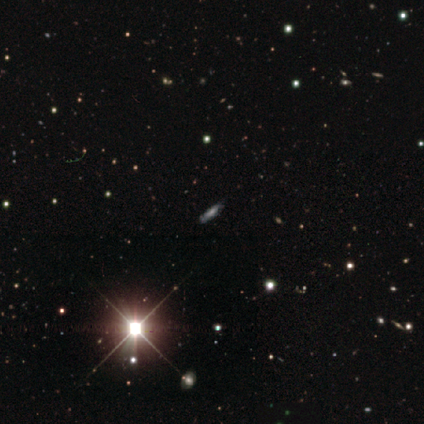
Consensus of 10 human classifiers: This is likely a star or artifact rather than a galaxy (60%).